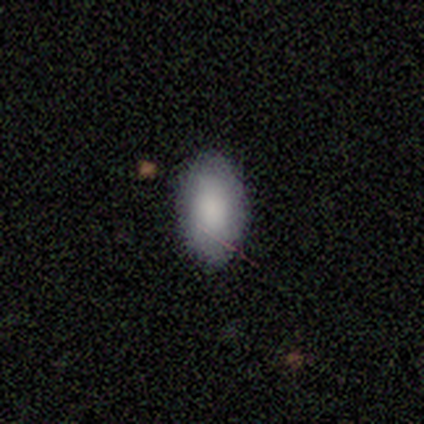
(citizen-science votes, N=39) Smooth or featured? smooth (85%)
How rounded? in between (91%)
Merging? none (94%)